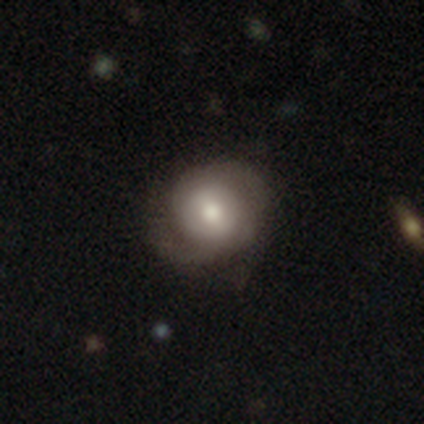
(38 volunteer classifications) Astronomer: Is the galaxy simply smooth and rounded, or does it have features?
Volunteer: featured or disk — 63%.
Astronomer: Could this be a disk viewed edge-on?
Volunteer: no — 96%.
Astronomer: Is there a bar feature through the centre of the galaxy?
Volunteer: no — 48% (runner-up: weak, 30%).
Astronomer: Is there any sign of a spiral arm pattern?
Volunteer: yes — 91%.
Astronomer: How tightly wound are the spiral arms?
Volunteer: tight — 38%, tied with medium at 38%.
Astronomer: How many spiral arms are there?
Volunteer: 2 — 71%.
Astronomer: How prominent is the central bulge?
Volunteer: moderate — 52%.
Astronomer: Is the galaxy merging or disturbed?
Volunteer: none — 71%.